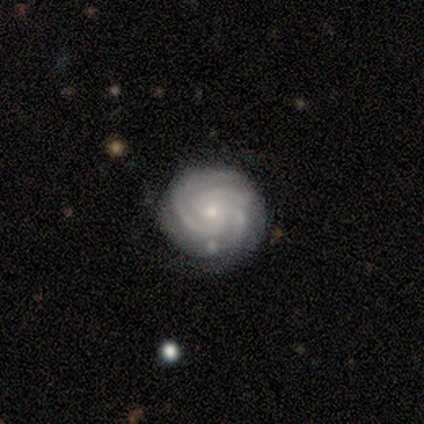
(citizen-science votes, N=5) This appears to be a featured or disk galaxy (100%) with no bar (80%), 3 (80%) tight (100%) spiral arms (100%) and a small central bulge (80%). Merging: minor disturbance (60%).